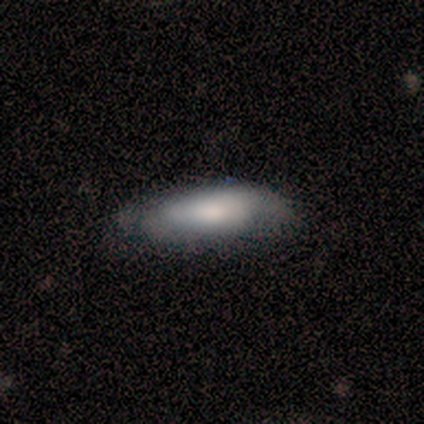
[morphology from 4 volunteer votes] This appears to be a smooth galaxy with no disk features (100%) that is in between round and cigar-shaped (75%). Merging: minor disturbance (75%).